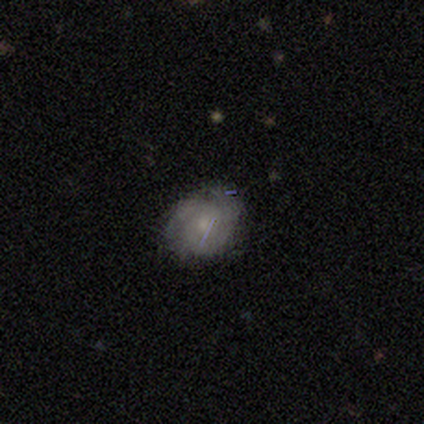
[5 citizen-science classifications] Overall: featured or disk (60%; smooth 40%). Edge-on disk: no (100%). Bar: no (67%; weak 33%). Spiral arms: yes (67%; no 33%). Spiral arm count: 3 (50%, tied with can't tell). Spiral winding: tight (50%, tied with medium). Bulge size: small (67%; none 33%). Merging: none (80%).